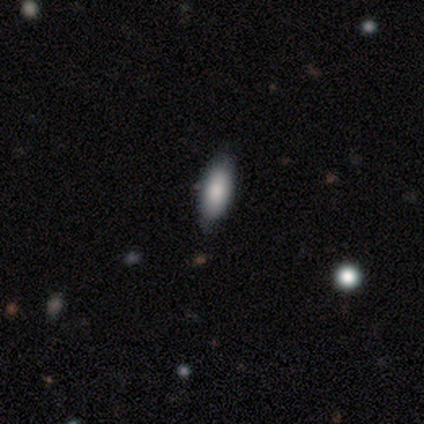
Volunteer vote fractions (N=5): Q: Smooth or featured?
A: smooth (60%); runner-up: featured or disk (20%)
Q: How rounded?
A: in between (100%)
Q: Merging?
A: none (100%)